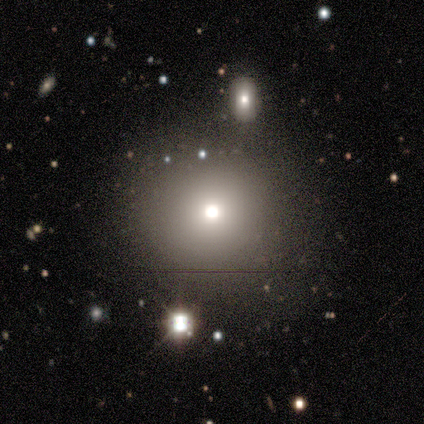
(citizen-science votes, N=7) Smooth or featured: smooth — 86% (star or artifact — 14%)
How rounded: round — 83% (in between — 17%)
Merging: none — 100%